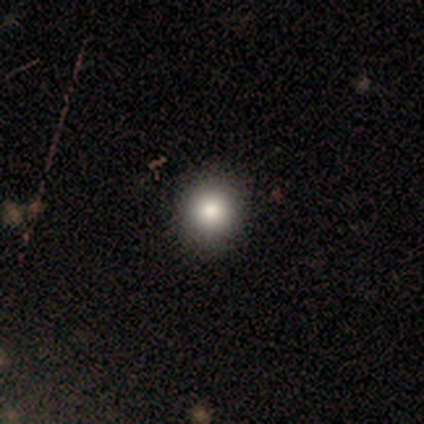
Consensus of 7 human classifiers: smooth 100%, featured or disk 0%, star or artifact 0%. Down the decision tree: how rounded — round (86%); merging — none (86%).